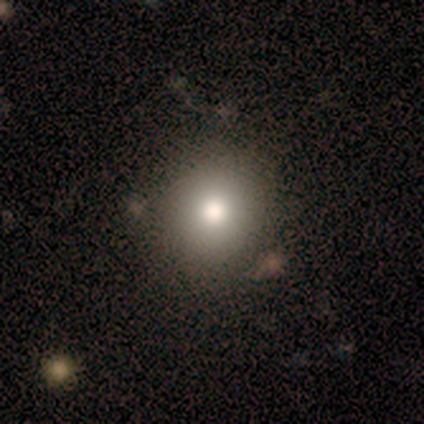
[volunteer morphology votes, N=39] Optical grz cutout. It shows a smooth galaxy with no disk features (74%) that is round (86%). Merging: none (58%).